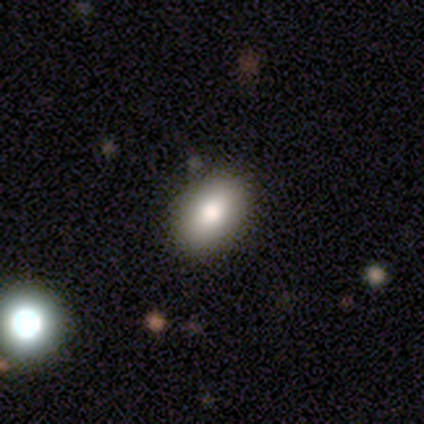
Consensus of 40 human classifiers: Volunteers were most divided on "smooth or featured": smooth: 80%, featured or disk: 12%, star or artifact: 8%. More confident: how rounded — in between (91%); merging — none (89%).